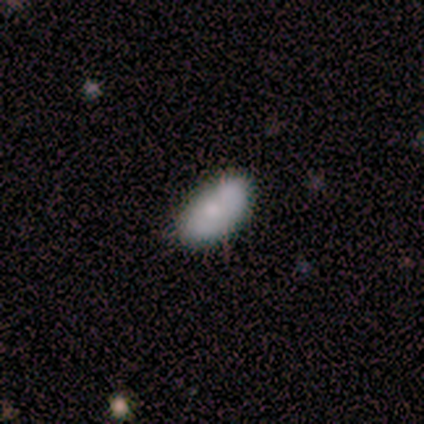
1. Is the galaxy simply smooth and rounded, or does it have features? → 60% smooth, 40% featured or disk, 0% star or artifact.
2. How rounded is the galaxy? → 100% in between, 0% round, 0% cigar-shaped.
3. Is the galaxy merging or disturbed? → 60% none, 20% minor disturbance, 20% merger, 0% major disturbance.